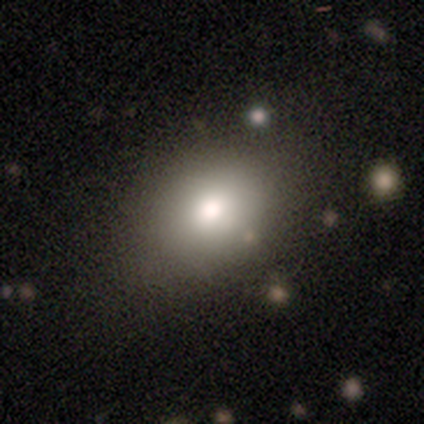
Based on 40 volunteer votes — Smooth or featured?
  - smooth: 85% *
  - featured or disk: 12%
  - star or artifact: 2%
How rounded?
  - in between: 56% *
  - round: 41%
  - cigar-shaped: 3%
Merging?
  - none: 51% *
  - minor disturbance: 18%
  - merger: 10%
  - major disturbance: 0%